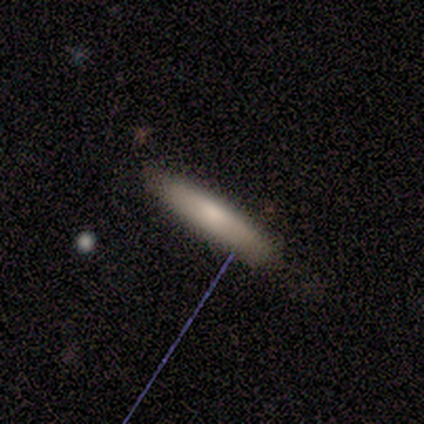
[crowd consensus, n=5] Q: Smooth or featured?
A: smooth (80%); runner-up: featured or disk (20%)
Q: How rounded?
A: cigar-shaped (75%); runner-up: in between (25%)
Q: Merging?
A: none (100%)